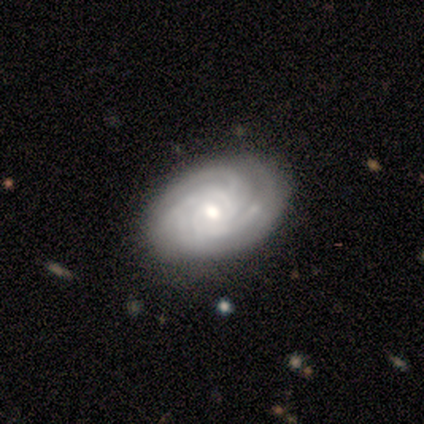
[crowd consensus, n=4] Morphology: type=featured or disk (100%); edge-on=no (100%); bar=weak (75%); spiral arms=yes (100%); winding=tight (75%); arm count=2 (25%, tied with 3, 4 and can't tell); bulge=moderate (50%); merging=minor disturbance (50%).